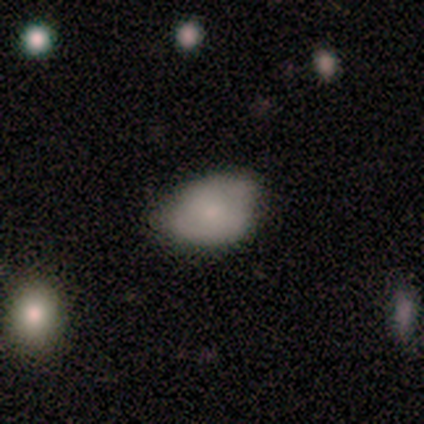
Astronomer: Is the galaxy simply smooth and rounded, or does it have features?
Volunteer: smooth — 60% (runner-up: featured or disk, 40%).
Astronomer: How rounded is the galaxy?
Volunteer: in between — 67%.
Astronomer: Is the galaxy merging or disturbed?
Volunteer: none — 60% (runner-up: minor disturbance, 40%).